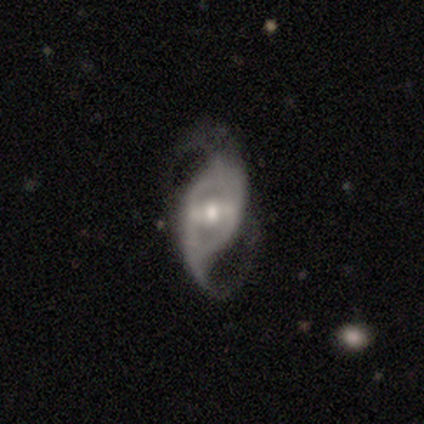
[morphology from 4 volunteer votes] Smooth or featured? 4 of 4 (100%) said featured or disk. Edge-on disk? 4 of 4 (100%) said no. Bar? 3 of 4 (75%) said weak. Spiral arms? 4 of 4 (100%) said yes. Spiral winding? 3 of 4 (75%) said medium. Spiral arm count? 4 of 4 (100%) said 2. Bulge size? 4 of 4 (100%) said moderate. Merging? 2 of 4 (50%, tied with minor disturbance) said none.